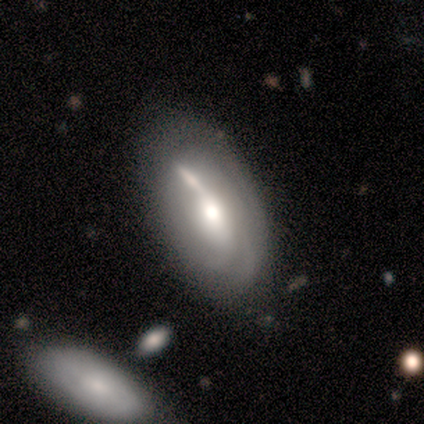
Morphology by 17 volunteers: A featured or disk galaxy (65%) with no bar (62%), tight (50%, tied with medium) spiral arms (50%, tied with no) and a moderate central bulge (50%). Merging: none (50%).